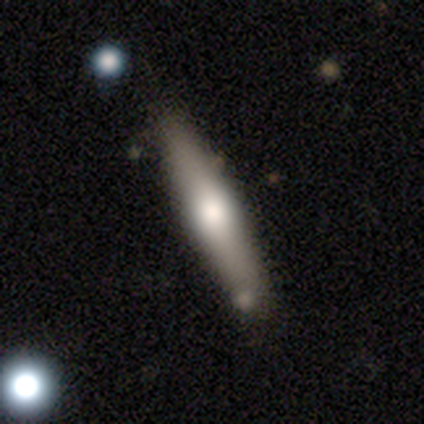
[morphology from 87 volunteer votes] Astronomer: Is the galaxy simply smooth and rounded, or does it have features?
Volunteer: smooth — 48% (runner-up: featured or disk, 47%).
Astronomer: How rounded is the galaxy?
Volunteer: cigar-shaped — 98%.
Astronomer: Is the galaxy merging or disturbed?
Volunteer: none — 77%.